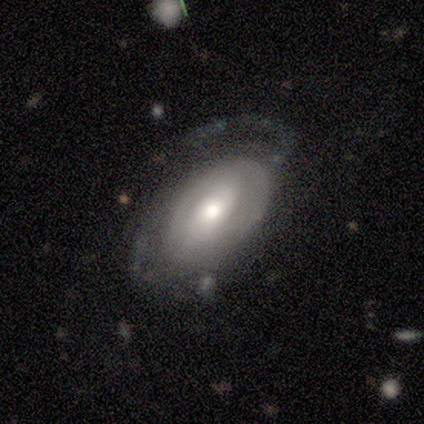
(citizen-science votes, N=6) This appears to be a featured or disk galaxy (67%) with a weak bar (100%), 2 (33%, tied with 4 and can't tell) tight (67%) spiral arms (100%) and a moderate central bulge (100%). Merging: none (83%).